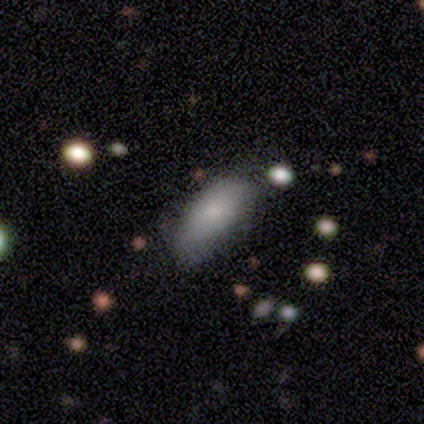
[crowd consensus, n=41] Smooth or featured? smooth (76%)
How rounded? in between (84%)
Merging? none (54%)